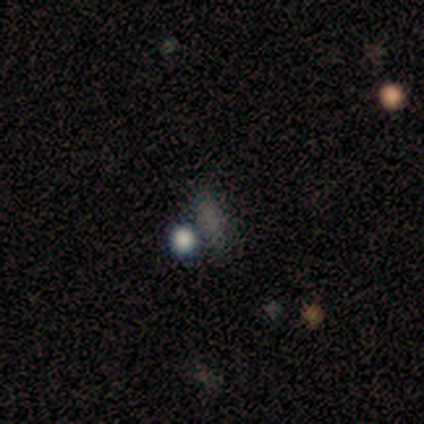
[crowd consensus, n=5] Smooth or featured? star or artifact (60%)